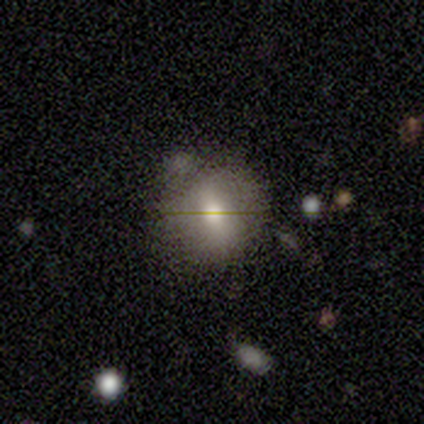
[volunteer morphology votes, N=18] This appears to be a smooth galaxy with no disk features (89%) that is round (75%). Merging: none (53%).